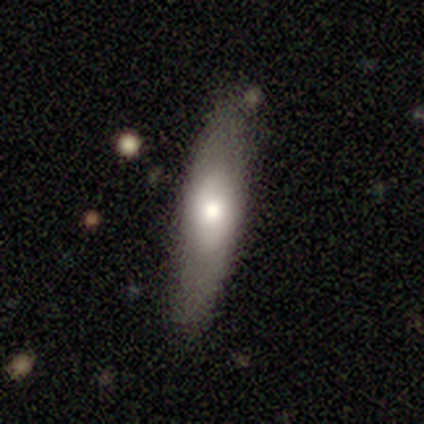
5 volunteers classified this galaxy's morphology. Smooth or featured? featured or disk (60%)
Edge-on disk? no (67%)
Bar? weak (50%, tied with no)
Spiral arms? no (100%)
Bulge size? moderate (50%, tied with small)
Merging? none (100%)